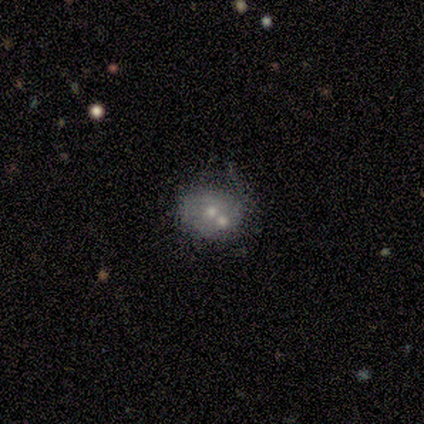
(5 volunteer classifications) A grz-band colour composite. It shows a featured or disk galaxy (80%) with no bar (100%), no spiral arms (100%) and a small central bulge (50%). Merging: none (60%).